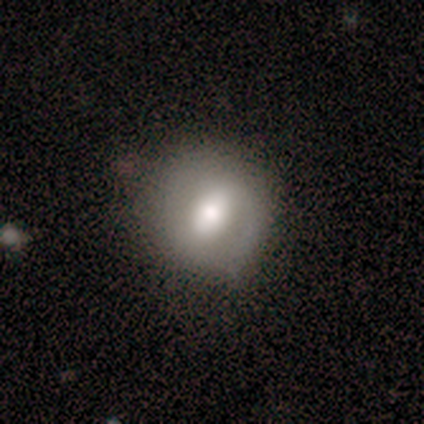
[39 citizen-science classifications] Overall: smooth (56%; featured or disk 36%). How rounded: round (91%). Merging: none (78%).